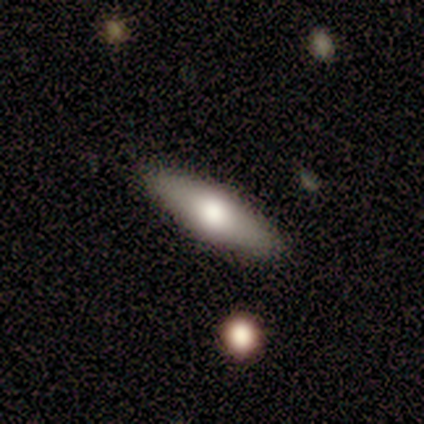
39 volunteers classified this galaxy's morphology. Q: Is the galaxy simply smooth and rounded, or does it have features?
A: smooth — 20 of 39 (51%).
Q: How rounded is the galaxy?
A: cigar-shaped — 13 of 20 (65%).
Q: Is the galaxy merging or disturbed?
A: none — 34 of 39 (87%).